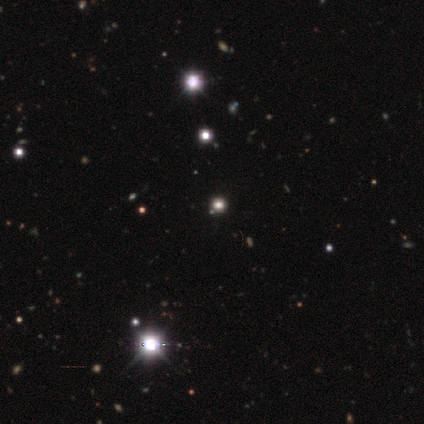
star or artifact 60%, smooth 40%, featured or disk 0%.